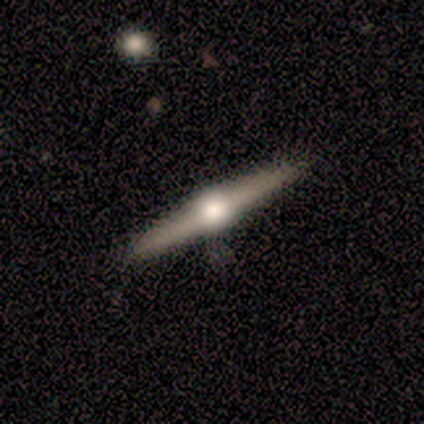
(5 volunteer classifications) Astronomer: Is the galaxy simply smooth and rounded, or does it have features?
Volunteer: featured or disk — 80%.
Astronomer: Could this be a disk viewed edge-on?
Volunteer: yes — 100%.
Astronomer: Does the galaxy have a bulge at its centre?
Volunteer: rounded — 100%.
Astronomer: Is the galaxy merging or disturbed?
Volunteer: none — 100%.